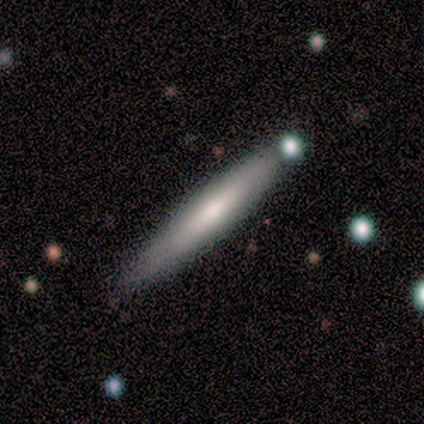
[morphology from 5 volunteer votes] Volunteers were most divided on "smooth or featured": smooth: 60%, featured or disk: 20%, star or artifact: 20%. More confident: how rounded — cigar-shaped (100%); merging — none (75%).